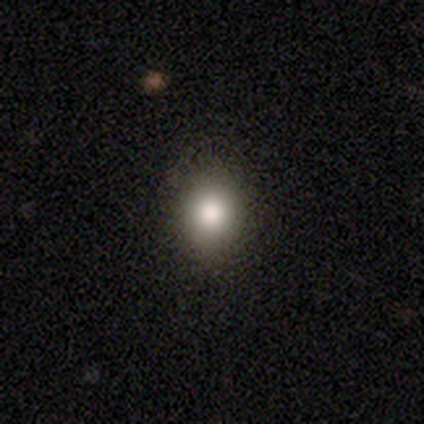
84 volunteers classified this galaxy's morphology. smooth_or_featured: smooth (p=0.80) [alt: star or artifact p=0.17]
how_rounded: round (p=0.61) [alt: in between p=0.39]
merging: none (p=0.91) [alt: minor disturbance p=0.06]